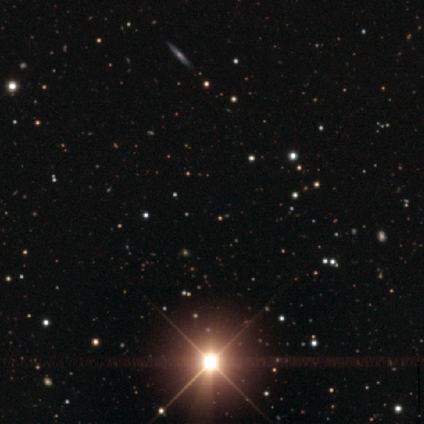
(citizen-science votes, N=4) Smooth or featured?
  - star or artifact: 100% *
  - smooth: 0%
  - featured or disk: 0%